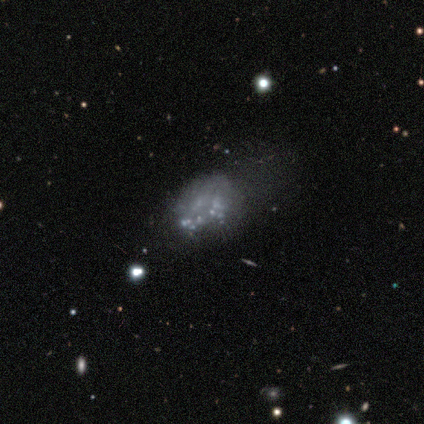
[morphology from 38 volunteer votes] Smooth or featured? featured or disk (76%)
Edge-on disk? no (100%)
Bar? no (97%)
Spiral arms? no (100%)
Bulge size? none (90%)
Merging? none (36%)